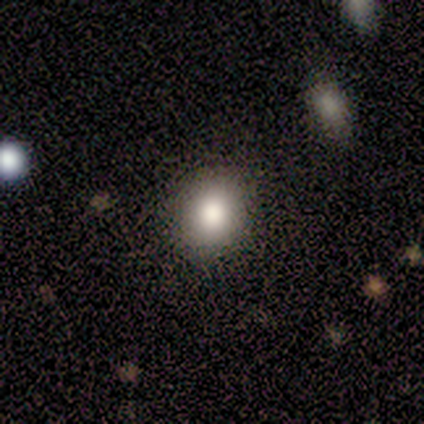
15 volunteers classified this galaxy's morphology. Smooth or featured? 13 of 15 (87%) said smooth. How rounded? 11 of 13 (85%) said round. Merging? 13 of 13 (100%) said none.